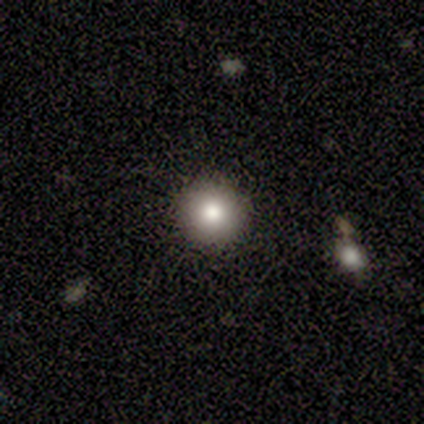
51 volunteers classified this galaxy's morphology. This is clearly a smooth galaxy (86%). How rounded: clearly round (100%). Merging: clearly none (93%).